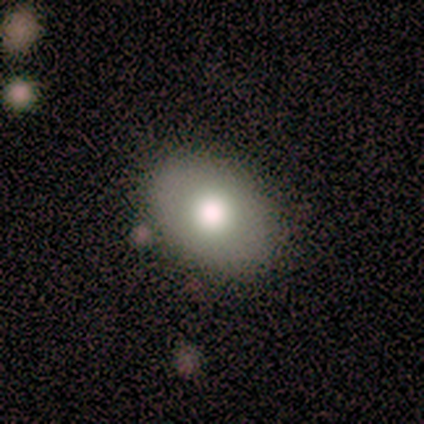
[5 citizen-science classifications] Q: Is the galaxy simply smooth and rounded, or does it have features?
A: smooth — 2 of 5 (40%, tied with featured or disk).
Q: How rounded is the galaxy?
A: in between — 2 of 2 (100%).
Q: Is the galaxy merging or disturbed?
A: none — 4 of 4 (100%).